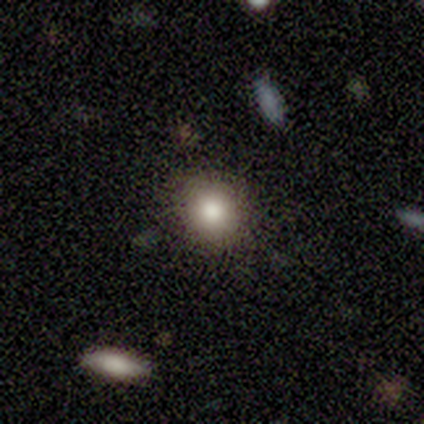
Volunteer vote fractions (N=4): smooth_or_featured: smooth (p=0.50) [tied with: featured or disk p=0.50]
how_rounded: round (p=0.50) [tied with: in between p=0.50]
merging: none (p=1.00)